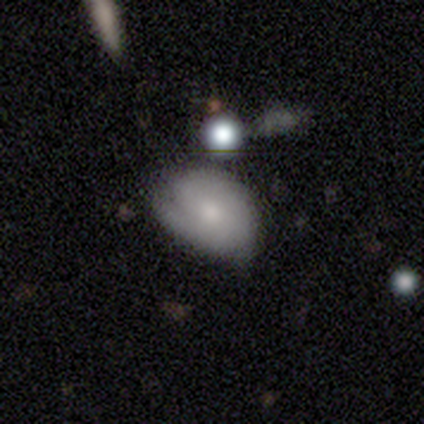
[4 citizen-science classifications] Q: Smooth or featured?
A: smooth (100%)
Q: How rounded?
A: in between (100%)
Q: Merging?
A: minor disturbance (75%); runner-up: major disturbance (25%)